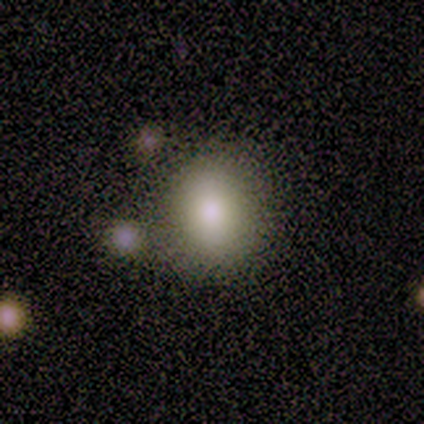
Overall: smooth (100%). How rounded: round (67%; in between 33%). Merging: none (67%).